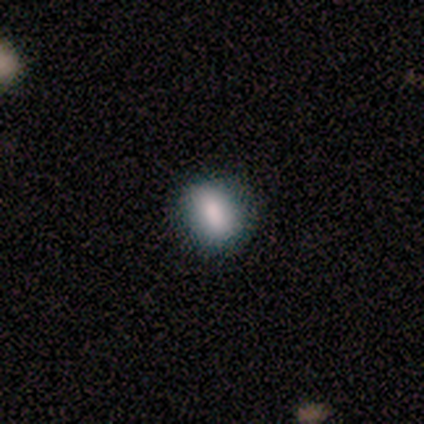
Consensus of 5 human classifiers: Q: Smooth or featured?
A: smooth (100%)
Q: How rounded?
A: in between (80%); runner-up: cigar-shaped (20%)
Q: Merging?
A: none (60%); runner-up: minor disturbance (40%)